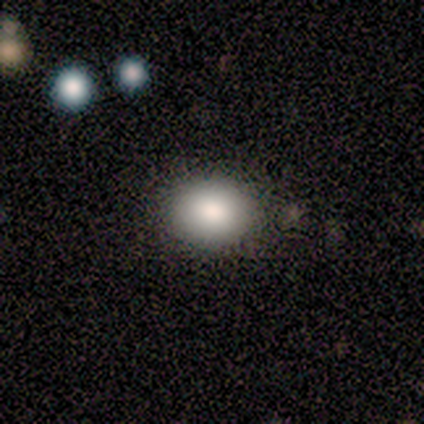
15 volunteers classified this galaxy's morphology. Volunteers were most divided on "how rounded": in between: 67%, round: 33%, cigar-shaped: 0%. More confident: merging — none (100%); smooth or featured — smooth (80%).